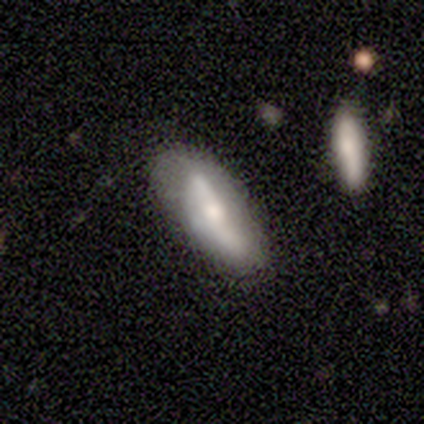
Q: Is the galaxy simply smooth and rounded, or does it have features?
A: smooth — 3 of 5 (60%).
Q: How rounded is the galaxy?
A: in between — 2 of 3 (67%).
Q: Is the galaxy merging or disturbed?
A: none — 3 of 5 (60%).